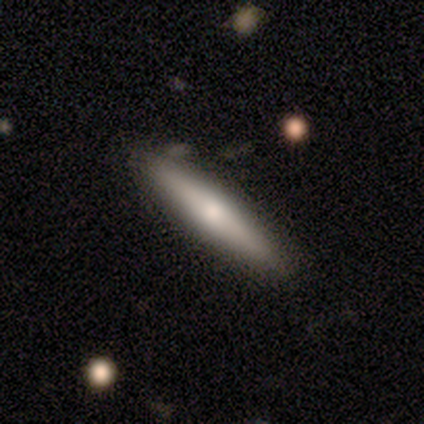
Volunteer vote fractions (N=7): A featured or disk galaxy (71%) viewed edge-on (100%) with a rounded central bulge (80%). Merging: none (83%).